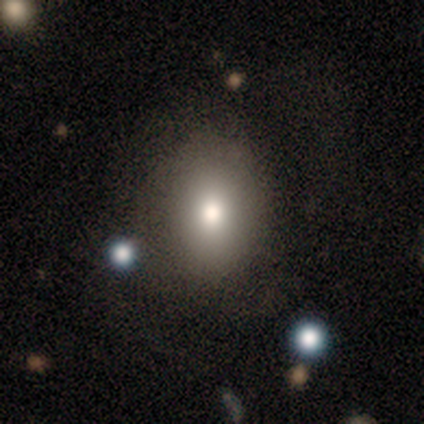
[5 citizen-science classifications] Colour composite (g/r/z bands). It shows a smooth galaxy with no disk features (60%) that is round (100%). Merging: none (100%).